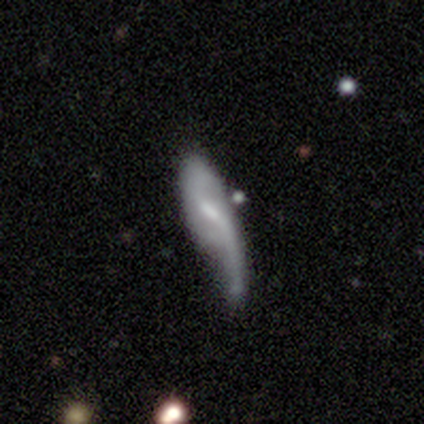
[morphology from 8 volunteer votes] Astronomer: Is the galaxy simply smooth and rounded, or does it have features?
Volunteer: smooth — 62%.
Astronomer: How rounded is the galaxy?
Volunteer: in between — 60% (runner-up: cigar-shaped, 40%).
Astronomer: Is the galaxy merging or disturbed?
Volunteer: major disturbance — 38% (runner-up: none, 25%).